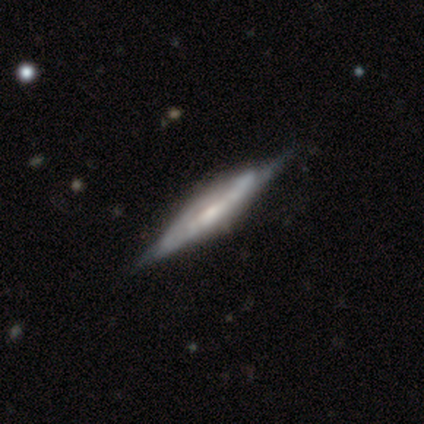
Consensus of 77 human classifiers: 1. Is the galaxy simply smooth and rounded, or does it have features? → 81% featured or disk, 13% smooth, 6% star or artifact.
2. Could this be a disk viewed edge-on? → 89% yes, 11% no.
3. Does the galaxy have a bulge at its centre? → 40% none, 33% rounded, 27% boxy.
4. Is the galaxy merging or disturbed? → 33% none, 19% minor disturbance, 3% major disturbance, 1% merger.